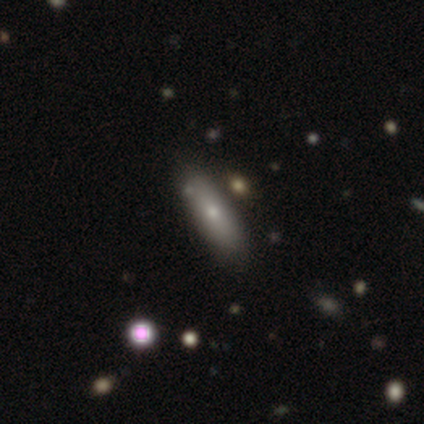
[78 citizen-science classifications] This appears to be a smooth galaxy with no disk features (73%) that is in between round and cigar-shaped (61%). Merging: none (33%).